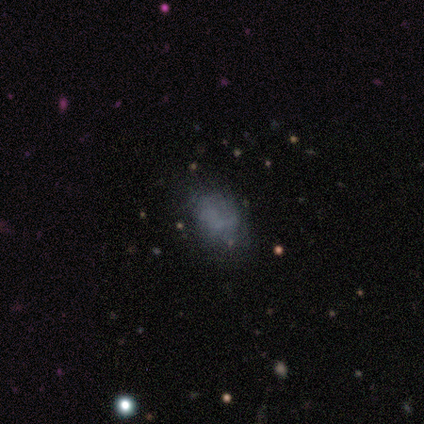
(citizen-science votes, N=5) A smooth galaxy with no disk features (60%) that is in between round and cigar-shaped (67%). Merging: minor disturbance (50%).